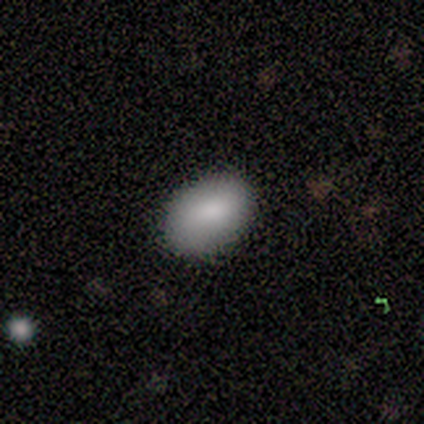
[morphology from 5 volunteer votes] smooth-or-featured: smooth: 80% | featured or disk: 20% | star or artifact: 0%
  how-rounded: in between: 75% | round: 25% | cigar-shaped: 0%
  merging: none: 80% | minor disturbance: 20% | major disturbance: 0% | merger: 0%